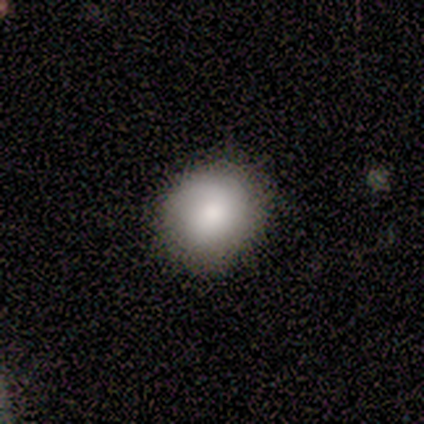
Morphology: type=smooth (83%); roundness=round (80%); merging=none (100%).